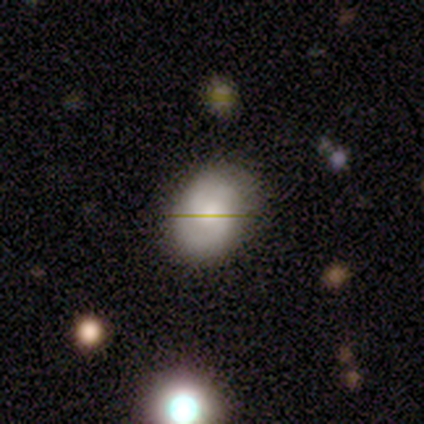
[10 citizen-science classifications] Q: Smooth or featured?
A: smooth (60%); runner-up: featured or disk (30%)
Q: How rounded?
A: in between (67%); runner-up: round (33%)
Q: Merging?
A: none (78%); runner-up: minor disturbance (22%)